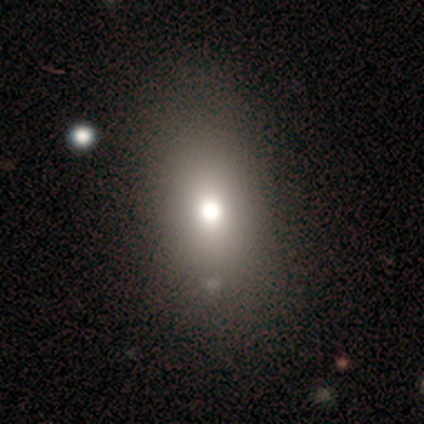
Smooth or featured? 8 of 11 (73%) said smooth. How rounded? 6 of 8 (75%) said in between. Merging? 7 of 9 (78%) said none.